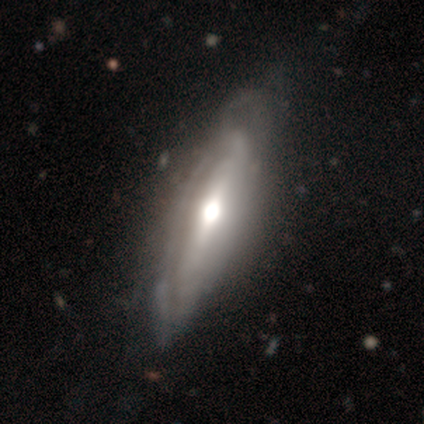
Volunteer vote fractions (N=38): Smooth or featured? 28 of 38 (74%) said featured or disk. Edge-on disk? 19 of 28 (68%) said no. Bar? 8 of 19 (42%) said strong. Spiral arms? 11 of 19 (58%) said yes. Spiral winding? 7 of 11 (64%) said tight. Spiral arm count? 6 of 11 (55%) said can't tell. Bulge size? 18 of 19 (95%) said moderate. Merging? 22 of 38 (58%) said none.